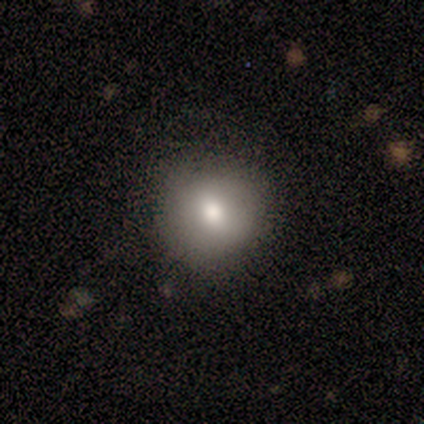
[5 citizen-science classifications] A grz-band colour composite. It shows a featured or disk galaxy (60%) with no bar (100%), no spiral arms (100%) and a moderate central bulge (100%). Merging: none (80%).